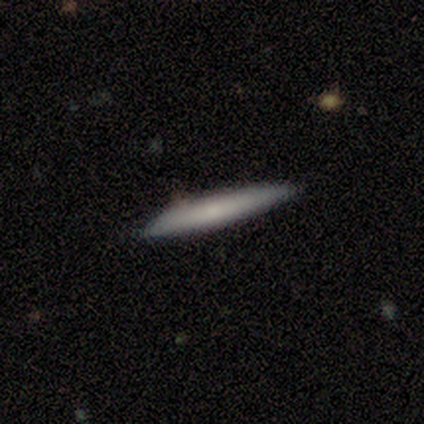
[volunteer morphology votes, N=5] Smooth or featured? 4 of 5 (80%) said smooth. How rounded? 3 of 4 (75%) said cigar-shaped. Merging? 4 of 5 (80%) said none.